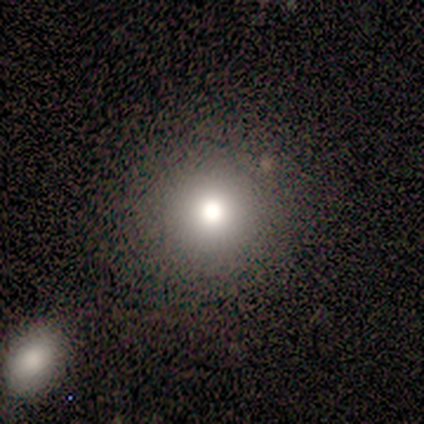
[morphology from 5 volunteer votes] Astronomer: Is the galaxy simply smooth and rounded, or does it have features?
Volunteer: smooth — 100%.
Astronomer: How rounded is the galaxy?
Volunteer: round — 100%.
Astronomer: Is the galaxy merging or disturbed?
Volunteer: none — 80%.